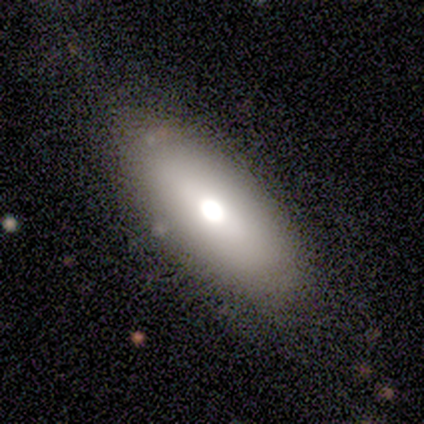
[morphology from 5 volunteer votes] type=smooth (40%, tied with featured or disk); roundness=in between (50%, tied with cigar-shaped); merging=none (100%).